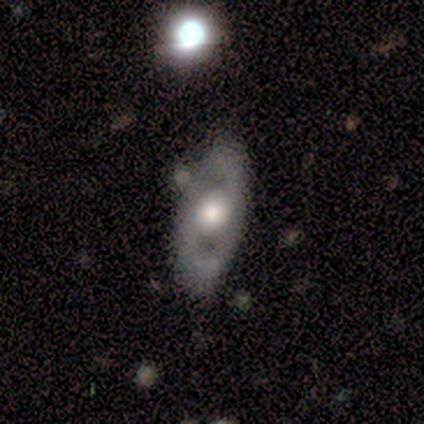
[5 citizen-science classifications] smooth_or_featured: featured or disk (p=0.80) [alt: smooth p=0.20]
disk_edge_on: yes (p=0.50) [tied with: no p=0.50]
edge_on_bulge: rounded (p=1.00)
merging: none (p=0.80) [alt: minor disturbance p=0.20]